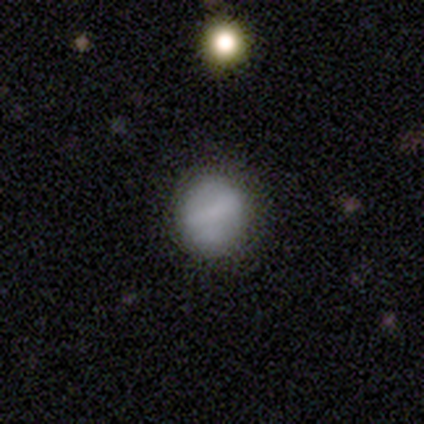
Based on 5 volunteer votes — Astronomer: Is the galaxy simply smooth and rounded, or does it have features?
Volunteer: smooth — 80%.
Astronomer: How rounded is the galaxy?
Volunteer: round — 75%.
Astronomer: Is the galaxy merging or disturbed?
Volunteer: none — 80%.